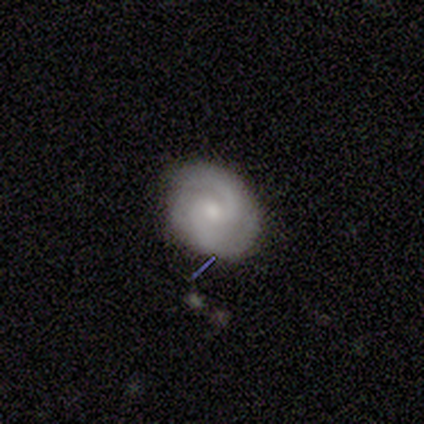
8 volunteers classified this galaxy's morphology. A featured or disk galaxy (75%) with no bar (67%), 2 (33%, tied with can't tell) tight (50%, tied with medium) spiral arms (100%) and a small central bulge (67%).

Vote fractions:
- Smooth or featured? featured or disk: 75% / smooth: 25% / star or artifact: 0%
- Edge-on disk? no: 100% / yes: 0%
- Bar? no: 67% / weak: 33% / strong: 0%
- Spiral arms? yes: 100% / no: 0%
- Spiral winding? tight: 50% (tied) / medium: 50% (tied) / loose: 0%
- Spiral arm count? 2: 33% (tied) / can't tell: 33% (tied) / 1: 17% / 3: 17% / 4: 0% / more than 4: 0%
- Bulge size? small: 67% / moderate: 33% / dominant: 0% / large: 0% / none: 0%
- Merging? none: 100% / minor disturbance: 0% / major disturbance: 0% / merger: 0%